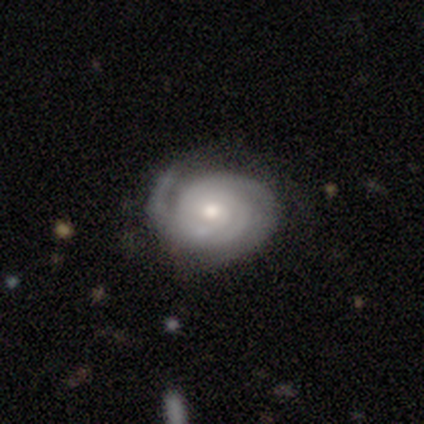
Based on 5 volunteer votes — This is clearly a featured or disk galaxy (100%). It is clearly not viewed edge-on (100%). Bar: clearly no (80%). Spiral arm pattern: clearly yes (100%). Spiral arm count: marginally 2 (40%, tied with 3). Spiral winding: clearly tight (100%). Central bulge: likely moderate (60%). Merging: likely none (60%).